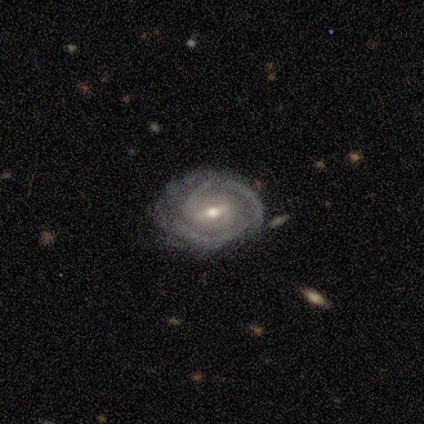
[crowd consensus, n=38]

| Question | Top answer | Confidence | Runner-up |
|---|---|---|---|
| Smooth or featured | featured or disk | 84% | smooth (8%) |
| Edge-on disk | no | 94% | yes (6%) |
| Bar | weak | 70% | strong (20%) |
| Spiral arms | yes | 100% | — |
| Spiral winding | tight | 53% | medium (40%) |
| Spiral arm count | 2 | 73% | 3 (10%) |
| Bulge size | moderate | 73% | small (20%) |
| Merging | none | 71% | minor disturbance (23%) |